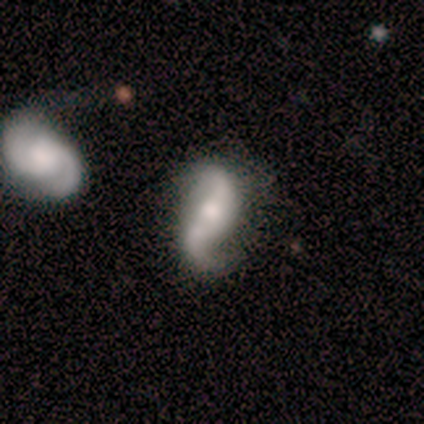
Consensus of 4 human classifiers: This is clearly a featured or disk galaxy (100%). It is clearly not viewed edge-on (100%). Bar: clearly no (100%). Spiral arm pattern: clearly yes (100%). Spiral arm count: likely 2 (75%). Spiral winding: possibly medium (50%, tied with loose). Central bulge: possibly moderate (50%). Merging: likely none (75%).